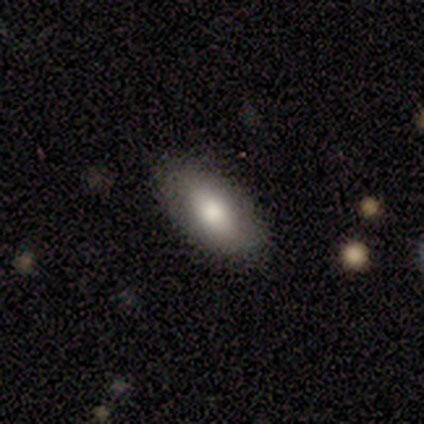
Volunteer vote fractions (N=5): Smooth or featured?
  - smooth: 100% *
  - featured or disk: 0%
  - star or artifact: 0%
How rounded?
  - in between: 80% *
  - cigar-shaped: 20%
  - round: 0%
Merging?
  - none: 80% *
  - minor disturbance: 20%
  - major disturbance: 0%
  - merger: 0%